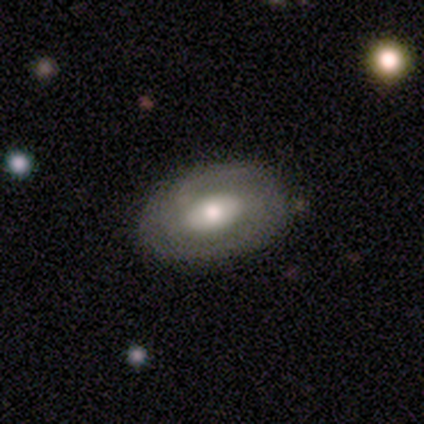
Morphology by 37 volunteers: Smooth or featured: featured or disk — 57% (smooth — 41%)
Edge-on disk: no — 71% (yes — 29%)
Bar: no — 47% (weak — 33%)
Spiral arms: yes — 60% (no — 40%)
Spiral winding: tight — 78% (medium — 11%)
Spiral arm count: 2 — 56% (can't tell — 33%)
Bulge size: moderate — 53% (large — 20%)
Merging: none — 75% (minor disturbance — 19%)